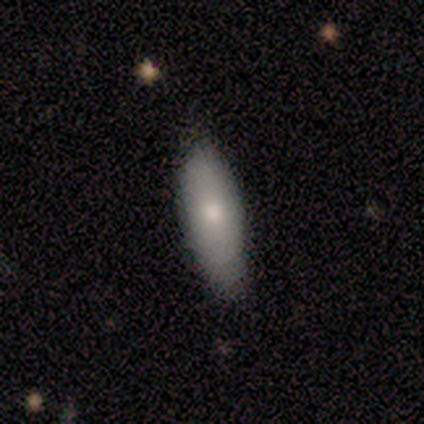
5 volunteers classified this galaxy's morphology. Smooth or featured? smooth (100%)
How rounded? in between (60%)
Merging? none (80%)